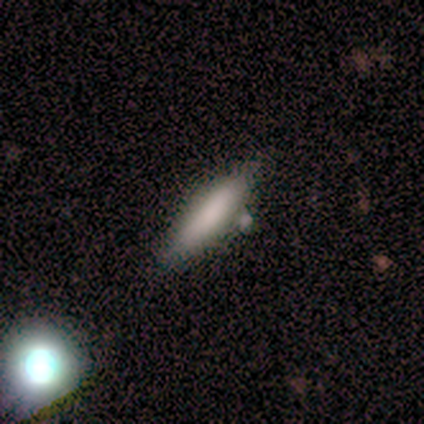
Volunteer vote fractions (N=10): This is clearly a smooth galaxy (80%). How rounded: likely cigar-shaped (75%). Merging: likely none (78%).